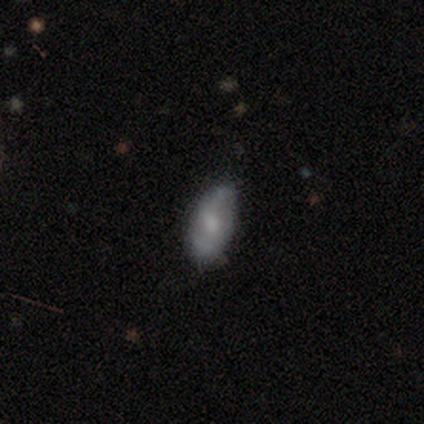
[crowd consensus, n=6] Smooth or featured? 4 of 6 (67%) said featured or disk. Edge-on disk? 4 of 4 (100%) said no. Bar? 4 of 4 (100%) said no. Spiral arms? 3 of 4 (75%) said yes. Spiral winding? 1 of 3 (33%, tied with medium and loose) said tight. Spiral arm count? 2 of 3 (67%) said 2. Bulge size? 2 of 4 (50%) said moderate. Merging? 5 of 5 (100%) said none.